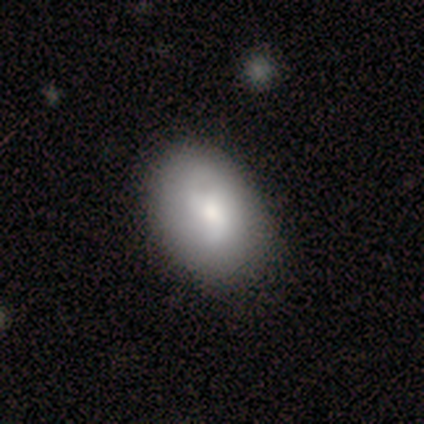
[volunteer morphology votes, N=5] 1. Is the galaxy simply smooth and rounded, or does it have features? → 80% smooth, 20% star or artifact, 0% featured or disk.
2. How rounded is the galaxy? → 75% in between, 25% round, 0% cigar-shaped.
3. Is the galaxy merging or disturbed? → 75% none, 25% minor disturbance, 0% major disturbance, 0% merger.